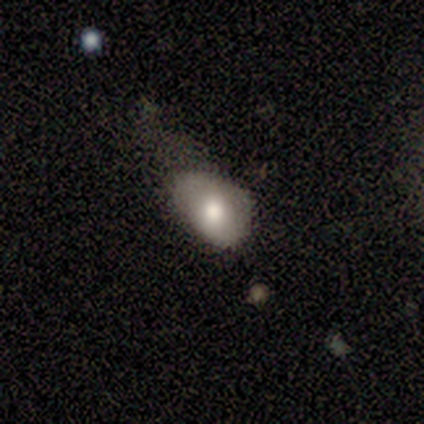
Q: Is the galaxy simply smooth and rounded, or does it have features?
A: smooth — 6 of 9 (67%).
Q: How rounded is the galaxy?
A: in between — 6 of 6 (100%).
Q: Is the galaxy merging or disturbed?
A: minor disturbance — 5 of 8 (62%).